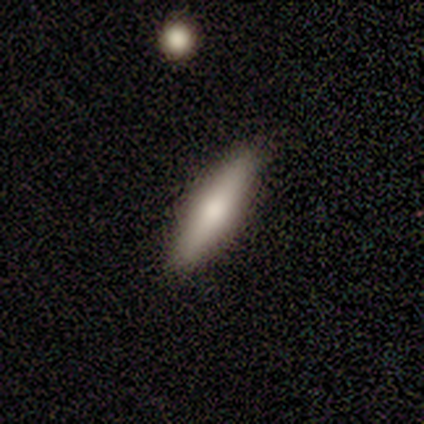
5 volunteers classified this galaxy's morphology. Volunteers were most divided on "smooth or featured": smooth: 60%, featured or disk: 40%, star or artifact: 0%. More confident: merging — none (80%); how rounded — in between (67%).